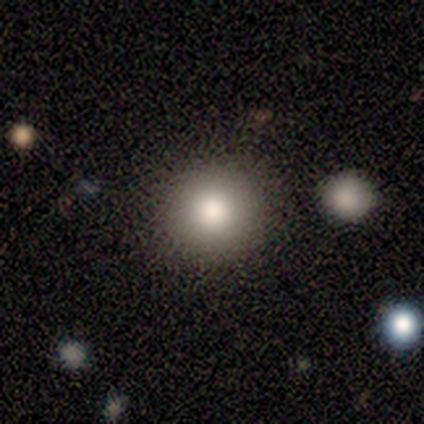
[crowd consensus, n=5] Smooth or featured? smooth (80%)
How rounded? round (100%)
Merging? none (100%)